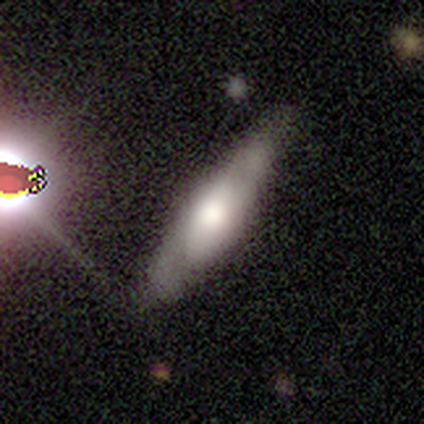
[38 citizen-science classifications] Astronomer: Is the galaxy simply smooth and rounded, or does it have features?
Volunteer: featured or disk — 47% (runner-up: smooth, 42%).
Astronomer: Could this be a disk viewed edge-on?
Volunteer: yes — 67%.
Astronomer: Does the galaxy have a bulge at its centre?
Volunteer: rounded — 83%.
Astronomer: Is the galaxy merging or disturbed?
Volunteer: none — 59%.